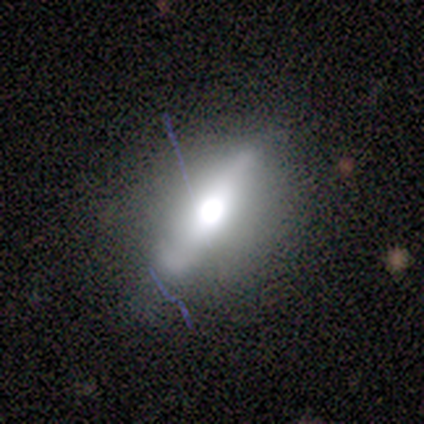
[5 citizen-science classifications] A featured or disk galaxy (60%) viewed edge-on (67%) with a rounded central bulge (100%). Merging: minor disturbance (60%).